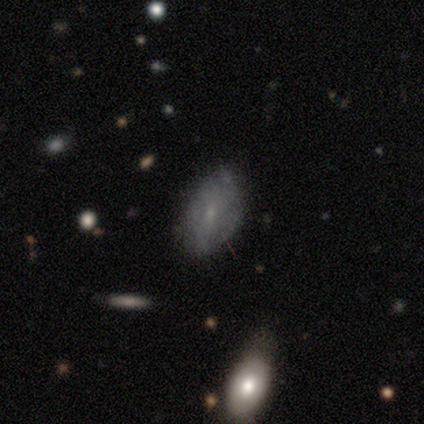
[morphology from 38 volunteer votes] This is possibly a smooth galaxy (47%, tied with featured or disk). How rounded: clearly in between (94%). Merging: possibly none (53%).